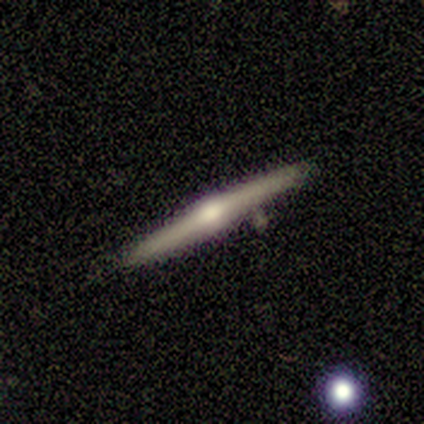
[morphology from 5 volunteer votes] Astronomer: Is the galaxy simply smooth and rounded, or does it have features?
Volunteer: featured or disk — 100%.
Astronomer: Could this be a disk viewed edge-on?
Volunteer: yes — 100%.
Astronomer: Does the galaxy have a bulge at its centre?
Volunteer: rounded — 100%.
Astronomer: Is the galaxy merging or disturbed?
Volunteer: none — 100%.